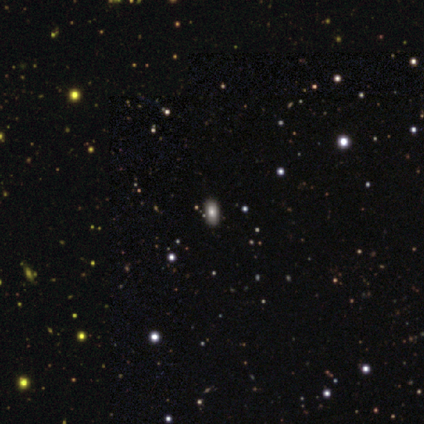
Q: Smooth or featured?
A: smooth (67%); runner-up: featured or disk (22%)
Q: How rounded?
A: in between (100%)
Q: Merging?
A: none (100%)